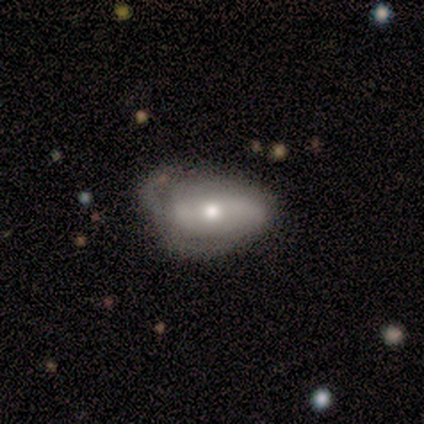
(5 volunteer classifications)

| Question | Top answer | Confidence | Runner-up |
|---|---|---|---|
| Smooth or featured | star or artifact | 60% | smooth (40%) |